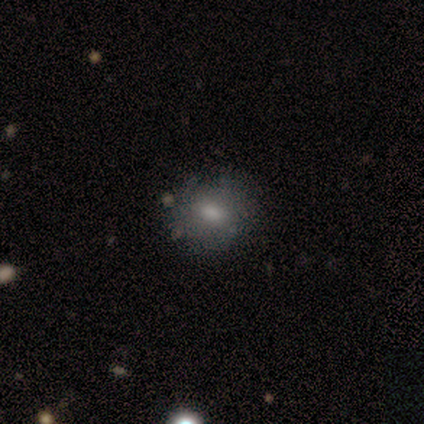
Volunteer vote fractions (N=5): A smooth galaxy with no disk features (60%) that is in between round and cigar-shaped (67%).

Vote fractions:
- Smooth or featured? smooth: 60% / featured or disk: 40% / star or artifact: 0%
- How rounded? in between: 67% / round: 33% / cigar-shaped: 0%
- Merging? none: 60% / minor disturbance: 40% / major disturbance: 0% / merger: 0%